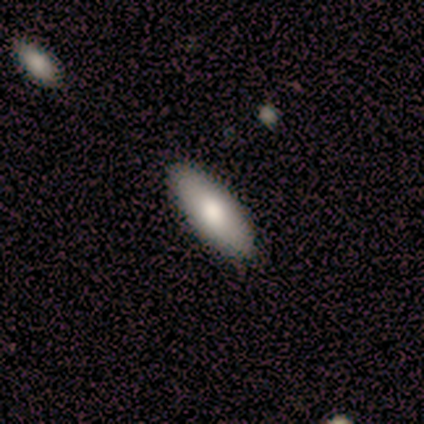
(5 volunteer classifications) Smooth or featured? smooth (100%)
How rounded? in between (60%)
Merging? none (100%)